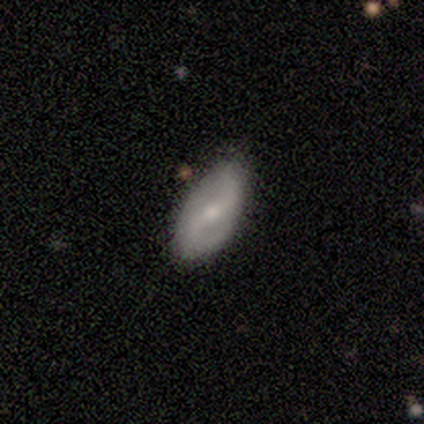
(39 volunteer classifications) Morphology: type=featured or disk (69%); edge-on=no (89%); bar=weak (42%); spiral arms=yes (88%); winding=loose (48%); arm count=2 (100%); bulge=moderate (46%); merging=none (86%).